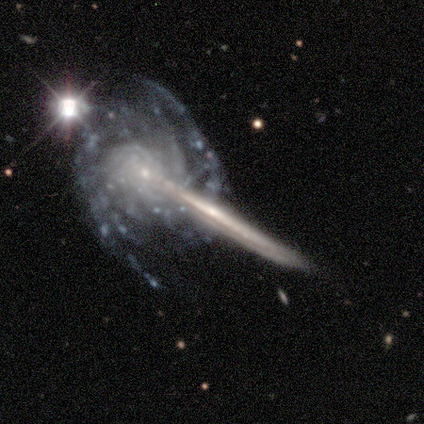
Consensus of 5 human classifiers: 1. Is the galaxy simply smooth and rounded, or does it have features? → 100% featured or disk, 0% smooth, 0% star or artifact.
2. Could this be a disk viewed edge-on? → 80% yes, 20% no.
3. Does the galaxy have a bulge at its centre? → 50% none (tied), 50% rounded (tied), 0% boxy.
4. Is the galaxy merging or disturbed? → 60% none, 20% minor disturbance, 20% merger, 0% major disturbance.